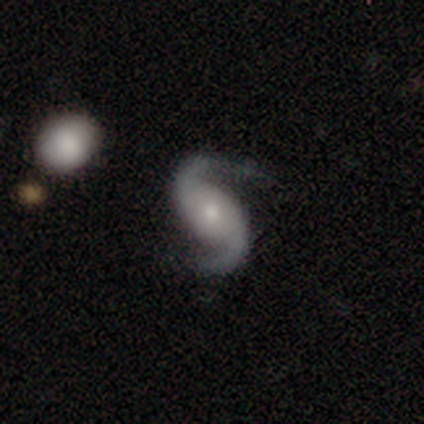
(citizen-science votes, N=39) Smooth or featured?
  - featured or disk: 95% *
  - star or artifact: 5%
  - smooth: 0%
Edge-on disk?
  - no: 97% *
  - yes: 3%
Bar?
  - no: 50% *
  - weak: 33%
  - strong: 17%
Spiral arms?
  - yes: 100% *
  - no: 0%
Spiral winding?
  - loose: 64% *
  - medium: 33%
  - tight: 3%
Spiral arm count?
  - 2: 100% *
  - 1: 0%
  - 3: 0%
  - 4: 0%
  - more than 4: 0%
  - can't tell: 0%
Bulge size?
  - small: 53% *
  - moderate: 42%
  - large: 6%
  - dominant: 0%
  - none: 0%
Merging?
  - none: 62% *
  - major disturbance: 22%
  - minor disturbance: 14%
  - merger: 3%